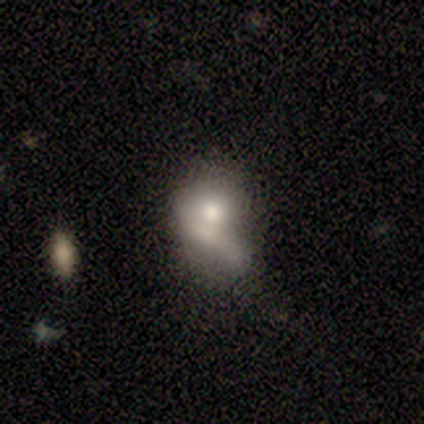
smooth 50% (tied), featured or disk 50% (tied), star or artifact 0%. Down the decision tree: how rounded — in between (100%); merging — merger (50%).